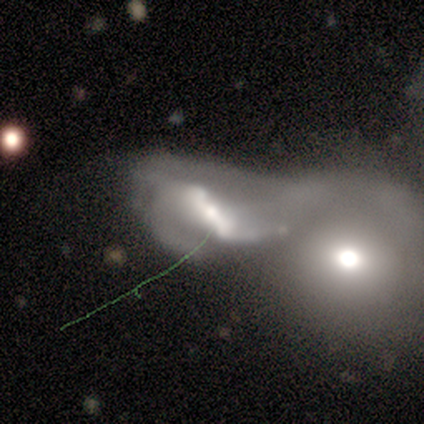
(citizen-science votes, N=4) Smooth or featured?
  - featured or disk: 75% *
  - smooth: 25%
  - star or artifact: 0%
Edge-on disk?
  - no: 100% *
  - yes: 0%
Bar?
  - strong: 33% * (tied)
  - weak: 33% * (tied)
  - no: 33% * (tied)
Spiral arms?
  - yes: 67% *
  - no: 33%
Spiral winding?
  - loose: 100% *
  - tight: 0%
  - medium: 0%
Spiral arm count?
  - 2: 100% *
  - 1: 0%
  - 3: 0%
  - 4: 0%
  - more than 4: 0%
  - can't tell: 0%
Bulge size?
  - moderate: 33% * (tied)
  - small: 33% * (tied)
  - none: 33% * (tied)
  - dominant: 0%
  - large: 0%
Merging?
  - major disturbance: 100% *
  - none: 0%
  - minor disturbance: 0%
  - merger: 0%